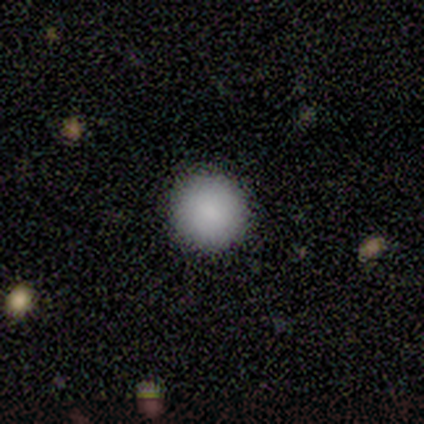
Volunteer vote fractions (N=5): This appears to be a smooth galaxy with no disk features (100%) that is round (100%). Merging: none (100%).